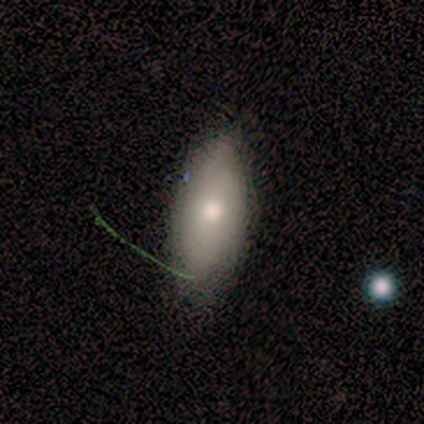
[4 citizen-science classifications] Volunteers were most divided on "how rounded": cigar-shaped: 67%, in between: 33%, round: 0%. More confident: smooth or featured — smooth (75%); merging — none (75%).